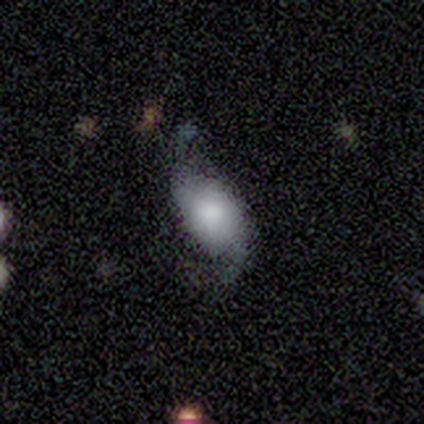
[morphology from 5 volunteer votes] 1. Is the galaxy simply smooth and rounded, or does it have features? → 60% smooth, 40% featured or disk, 0% star or artifact.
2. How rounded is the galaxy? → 100% in between, 0% round, 0% cigar-shaped.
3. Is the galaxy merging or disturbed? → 60% minor disturbance, 20% none, 20% major disturbance, 0% merger.